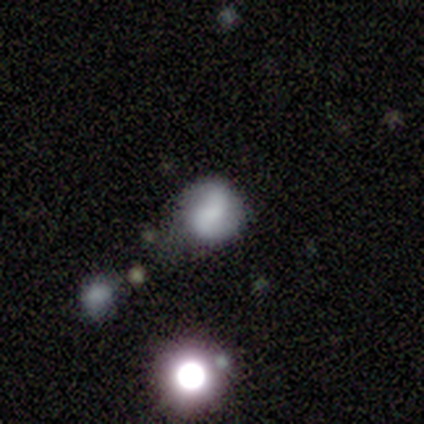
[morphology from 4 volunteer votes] This is likely a smooth galaxy (75%). How rounded: likely round (67%). Merging: likely none (67%).